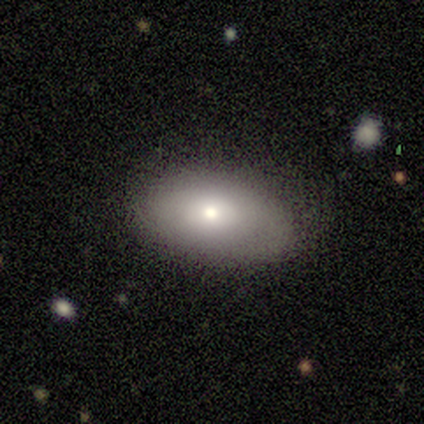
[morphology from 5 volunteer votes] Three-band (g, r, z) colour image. It shows a smooth galaxy with no disk features (100%) that is in between round and cigar-shaped (100%). Merging: none (100%).